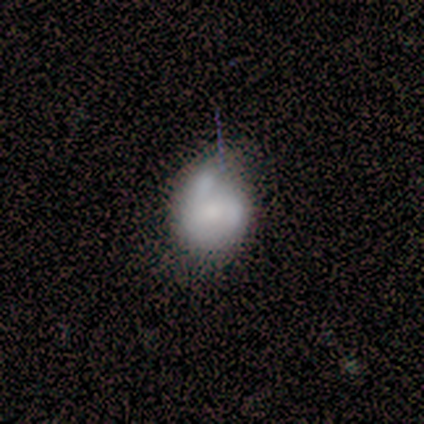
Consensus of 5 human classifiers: A smooth galaxy with no disk features (100%) that is round (100%).

Vote fractions:
- Smooth or featured? smooth: 100% / featured or disk: 0% / star or artifact: 0%
- How rounded? round: 100% / in between: 0% / cigar-shaped: 0%
- Merging? minor disturbance: 60% / none: 20% / merger: 20% / major disturbance: 0%